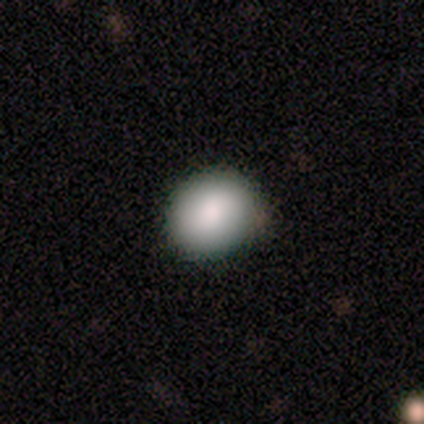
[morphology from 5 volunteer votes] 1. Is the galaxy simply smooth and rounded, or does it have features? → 100% smooth, 0% featured or disk, 0% star or artifact.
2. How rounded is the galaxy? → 80% round, 20% in between, 0% cigar-shaped.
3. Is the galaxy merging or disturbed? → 100% none, 0% minor disturbance, 0% major disturbance, 0% merger.